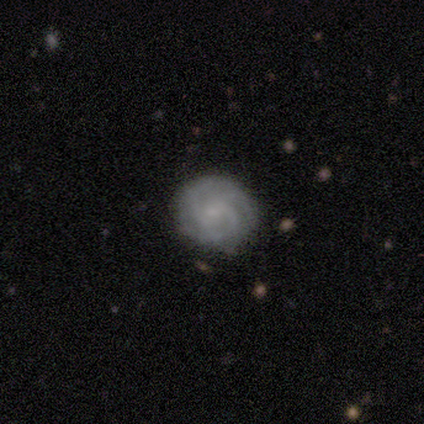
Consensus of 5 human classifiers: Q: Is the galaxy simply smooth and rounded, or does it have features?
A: featured or disk — 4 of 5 (80%).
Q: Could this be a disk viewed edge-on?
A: no — 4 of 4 (100%).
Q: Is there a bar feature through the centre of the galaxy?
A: no — 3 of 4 (75%).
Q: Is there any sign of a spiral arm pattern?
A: yes — 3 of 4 (75%).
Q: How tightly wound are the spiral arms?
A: tight — 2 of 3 (67%).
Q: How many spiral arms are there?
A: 3 — 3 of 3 (100%).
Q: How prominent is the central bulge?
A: small — 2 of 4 (50%).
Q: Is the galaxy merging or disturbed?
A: none — 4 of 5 (80%).